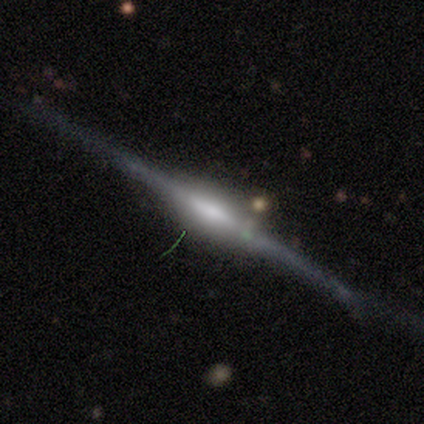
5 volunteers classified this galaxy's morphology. Q: Smooth or featured?
A: featured or disk (100%)
Q: Edge-on disk?
A: yes (100%)
Q: Edge-on bulge?
A: boxy (60%); runner-up: rounded (40%)
Q: Merging?
A: none (100%)